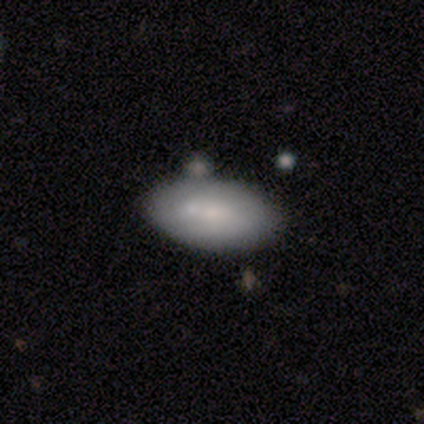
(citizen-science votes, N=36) Smooth or featured?
  - smooth: 69% *
  - featured or disk: 25%
  - star or artifact: 6%
How rounded?
  - in between: 100% *
  - round: 0%
  - cigar-shaped: 0%
Merging?
  - none: 59% *
  - minor disturbance: 26%
  - merger: 15%
  - major disturbance: 0%